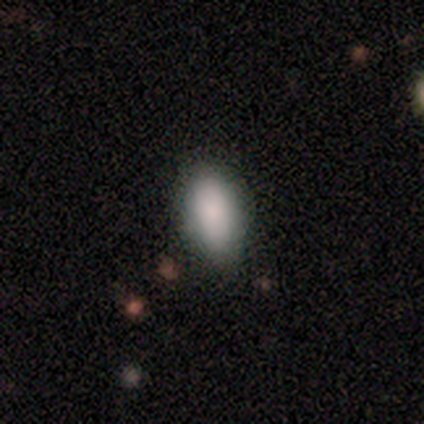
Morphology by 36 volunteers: Q: Smooth or featured?
A: smooth (89%); runner-up: featured or disk (8%)
Q: How rounded?
A: in between (97%); runner-up: cigar-shaped (3%)
Q: Merging?
A: none (89%); runner-up: minor disturbance (11%)